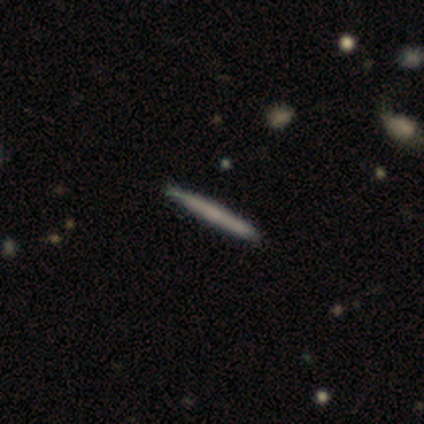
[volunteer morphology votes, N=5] Overall: smooth (80%). How rounded: cigar-shaped (100%). Merging: none (80%).